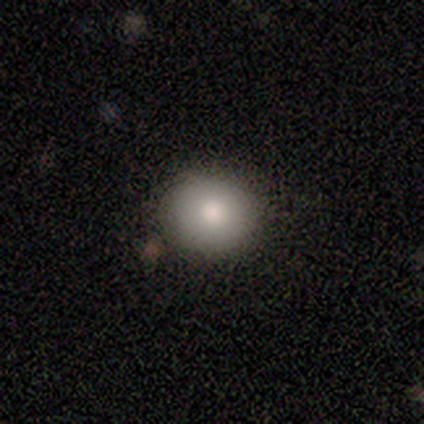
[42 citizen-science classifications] This appears to be a smooth galaxy with no disk features (88%) that is round (86%). Merging: none (83%).